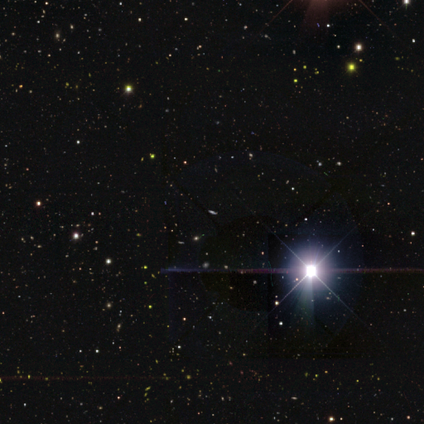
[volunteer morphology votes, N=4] This appears to be a star or artifact, not a galaxy (75%).